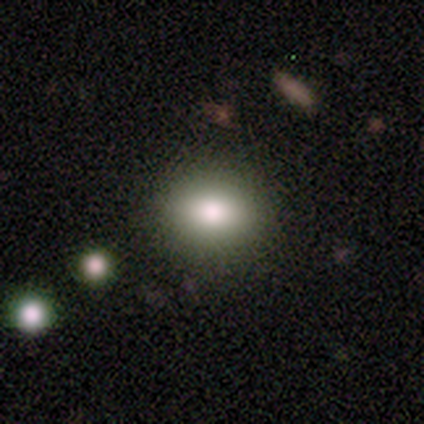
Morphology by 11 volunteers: type=smooth (73%); roundness=round (50%, tied with in between); merging=none (73%).